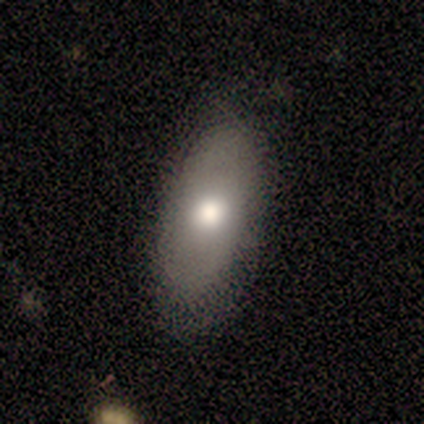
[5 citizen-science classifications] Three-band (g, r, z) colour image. It shows a smooth galaxy with no disk features (80%) that is in between round and cigar-shaped (75%). Merging: none (100%).